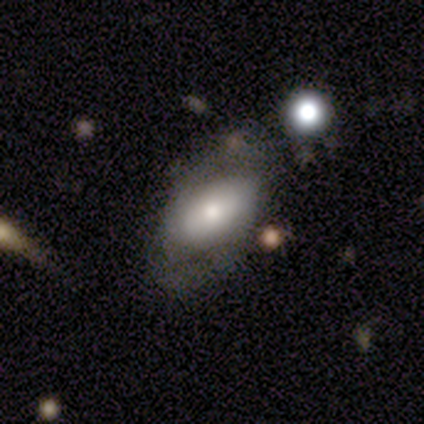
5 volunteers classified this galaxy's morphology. smooth-or-featured: featured or disk: 80% | smooth: 20% | star or artifact: 0%
  disk-edge-on: no: 100% | yes: 0%
    bar: weak: 75% | strong: 25% | no: 0%
    has-spiral-arms: yes: 50% (tied) | no: 50% (tied)
      spiral-winding: medium: 50% (tied) | loose: 50% (tied) | tight: 0%
      spiral-arm-count: 2: 100% | 1: 0% | 3: 0% | 4: 0% | more than 4: 0% | can't tell: 0%
    bulge-size: moderate: 75% | small: 25% | dominant: 0% | large: 0% | none: 0%
  merging: none: 40% (tied) | minor disturbance: 40% (tied) | major disturbance: 20% | merger: 0%